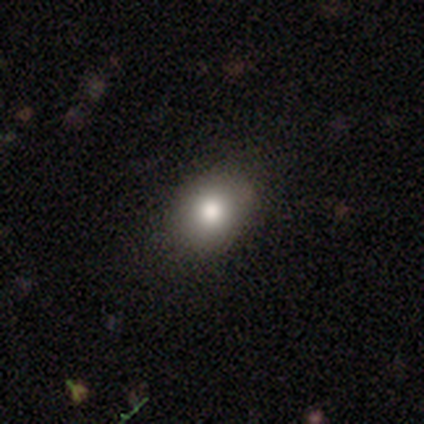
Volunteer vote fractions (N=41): Smooth or featured: smooth — 76% (featured or disk — 20%)
How rounded: round — 68% (in between — 32%)
Merging: none — 90% (minor disturbance — 5%)